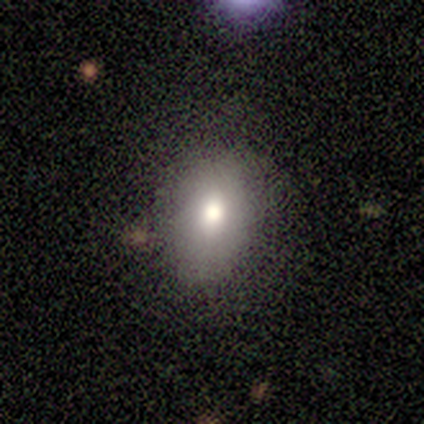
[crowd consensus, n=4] Smooth or featured? 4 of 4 (100%) said smooth. How rounded? 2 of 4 (50%, tied with in between) said round. Merging? 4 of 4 (100%) said none.